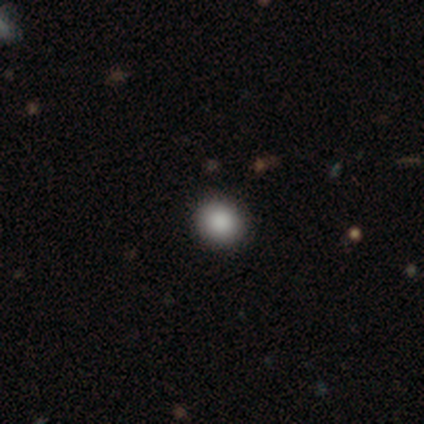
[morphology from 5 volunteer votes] type=smooth (80%); roundness=round (75%); merging=none (100%).